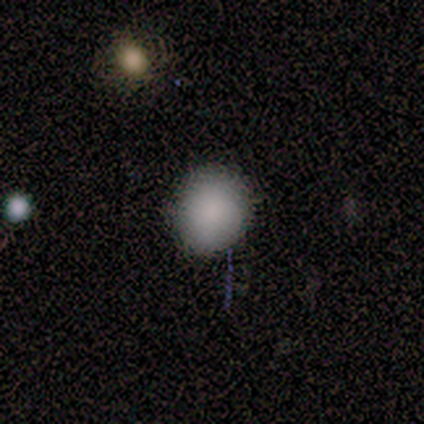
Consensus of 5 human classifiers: smooth_or_featured: smooth (p=0.80) [alt: star or artifact p=0.20]
how_rounded: round (p=1.00)
merging: none (p=0.75) [alt: minor disturbance p=0.25]